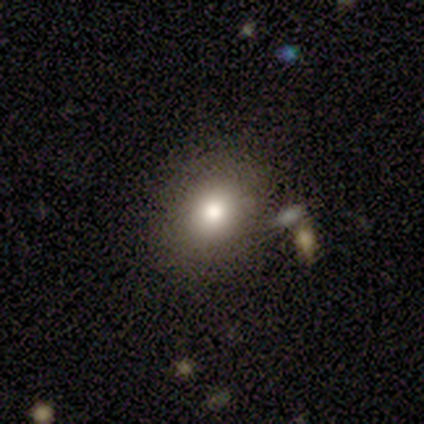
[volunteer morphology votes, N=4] Volunteers were most divided on "how rounded": round: 67%, in between: 33%, cigar-shaped: 0%. More confident: merging — none (100%); smooth or featured — smooth (75%).